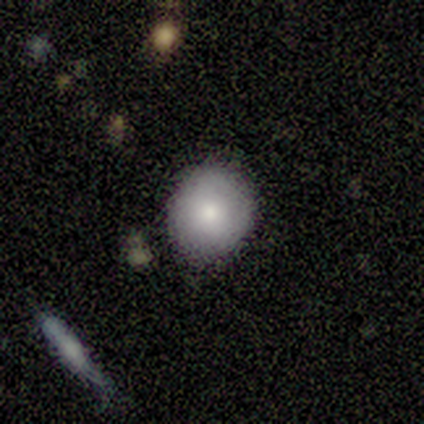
Q: Smooth or featured?
A: smooth (60%); runner-up: featured or disk (20%)
Q: How rounded?
A: round (100%)
Q: Merging?
A: none (75%); runner-up: minor disturbance (25%)